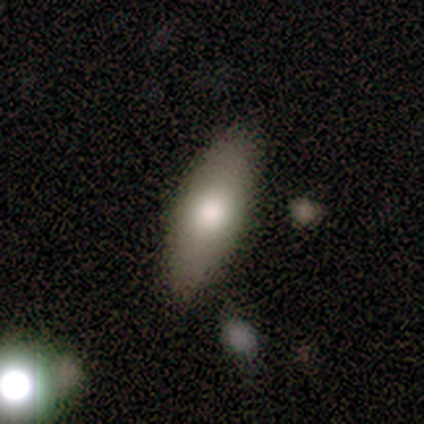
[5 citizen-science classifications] A smooth galaxy with no disk features (60%) that is in between round and cigar-shaped (100%). Merging: none (80%).